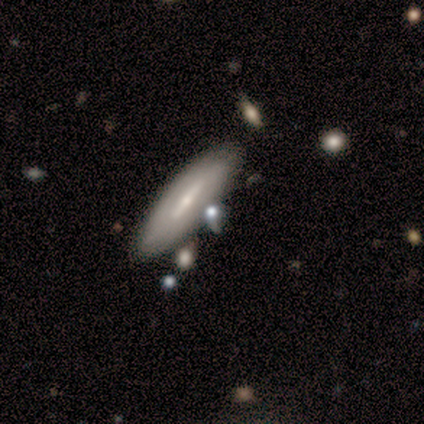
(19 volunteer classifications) A smooth galaxy with no disk features (47%, tied with featured or disk) that is cigar-shaped (67%). Merging: none (83%).